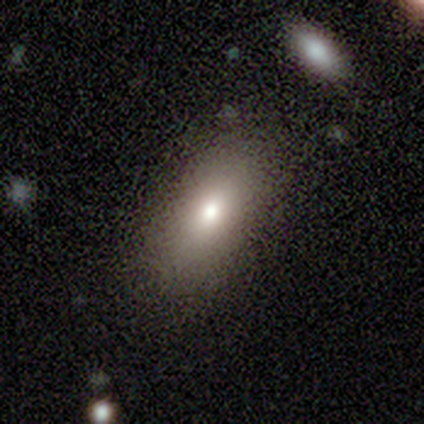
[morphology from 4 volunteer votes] Smooth or featured? smooth (100%)
How rounded? in between (75%)
Merging? none (75%)